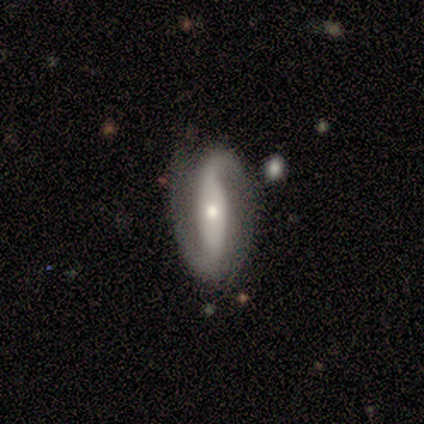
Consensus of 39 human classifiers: Q: Smooth or featured?
A: featured or disk (92%); runner-up: smooth (5%)
Q: Edge-on disk?
A: no (86%); runner-up: yes (14%)
Q: Bar?
A: strong (52%); runner-up: no (26%)
Q: Spiral arms?
A: yes (94%); runner-up: no (6%)
Q: Spiral winding?
A: loose (62%); runner-up: medium (28%)
Q: Spiral arm count?
A: 2 (86%); runner-up: 1 (10%)
Q: Bulge size?
A: moderate (55%); runner-up: small (39%)
Q: Merging?
A: none (82%); runner-up: minor disturbance (16%)